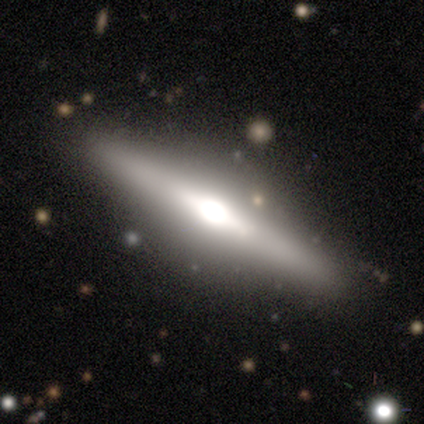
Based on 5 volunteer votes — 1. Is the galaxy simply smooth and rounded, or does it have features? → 80% featured or disk, 20% star or artifact, 0% smooth.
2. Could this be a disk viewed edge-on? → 100% yes, 0% no.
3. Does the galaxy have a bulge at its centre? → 75% rounded, 25% boxy, 0% none.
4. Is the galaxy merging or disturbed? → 100% none, 0% minor disturbance, 0% major disturbance, 0% merger.